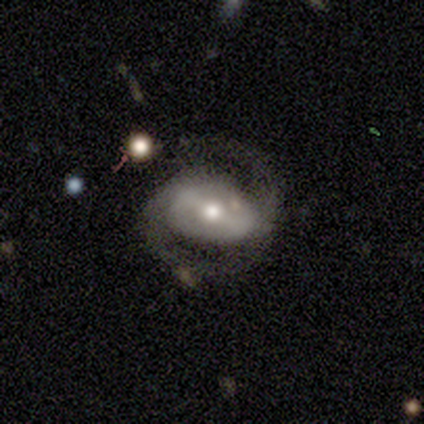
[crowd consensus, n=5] Smooth or featured? 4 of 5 (80%) said featured or disk. Edge-on disk? 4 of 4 (100%) said no. Bar? 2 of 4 (50%) said strong. Spiral arms? 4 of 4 (100%) said yes. Spiral winding? 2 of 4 (50%, tied with medium) said tight. Spiral arm count? 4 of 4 (100%) said 2. Bulge size? 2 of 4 (50%, tied with small) said moderate. Merging? 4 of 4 (100%) said none.